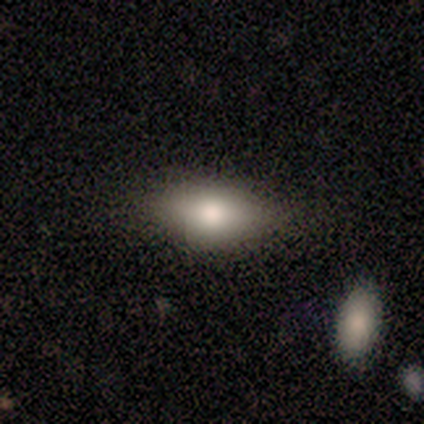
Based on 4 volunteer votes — This is likely a smooth galaxy (75%). How rounded: clearly in between (100%). Merging: clearly none (100%).